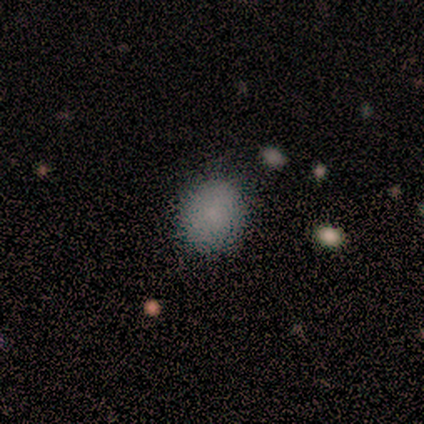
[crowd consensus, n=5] A smooth galaxy with no disk features (100%) that is round (60%). Merging: none (100%).